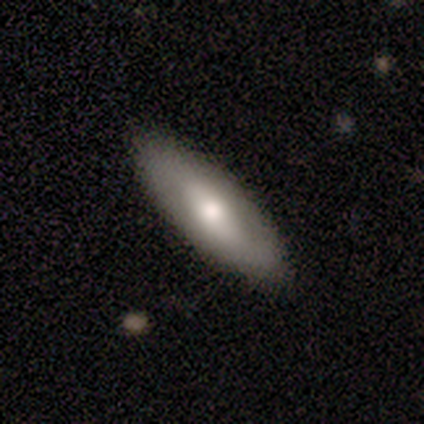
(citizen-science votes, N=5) smooth_or_featured: smooth (p=0.60) [alt: featured or disk p=0.20]
how_rounded: in between (p=0.67) [alt: cigar-shaped p=0.33]
merging: none (p=1.00)